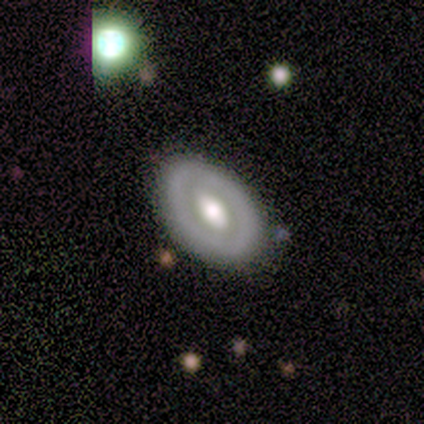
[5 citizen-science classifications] Smooth or featured? featured or disk (60%)
Edge-on disk? no (67%)
Bar? no (100%)
Spiral arms? no (100%)
Bulge size? large (100%)
Merging? none (100%)